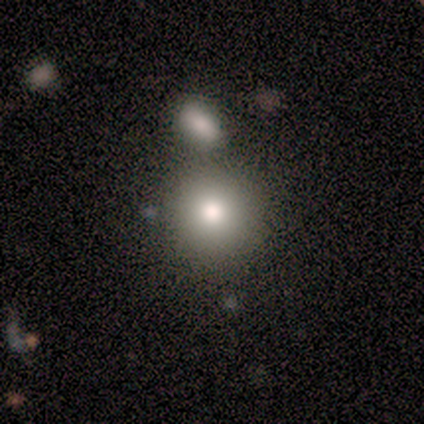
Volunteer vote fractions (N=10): Smooth or featured? 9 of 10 (90%) said smooth. How rounded? 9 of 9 (100%) said round. Merging? 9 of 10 (90%) said none.